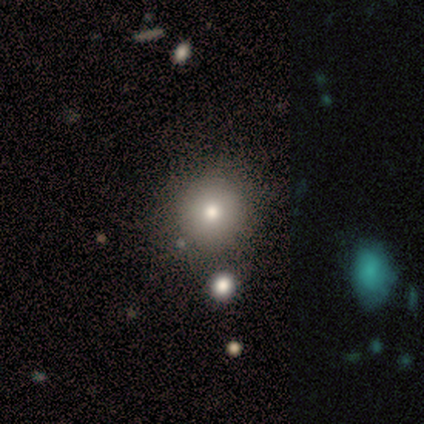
Smooth or featured? 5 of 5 (100%) said smooth. How rounded? 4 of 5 (80%) said round. Merging? 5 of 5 (100%) said none.